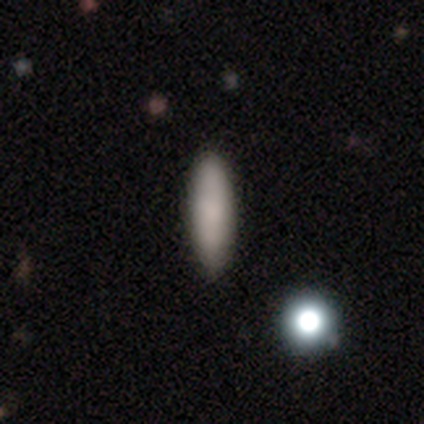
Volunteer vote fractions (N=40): This appears to be a smooth galaxy with no disk features (88%) that is cigar-shaped (57%). Merging: none (92%).